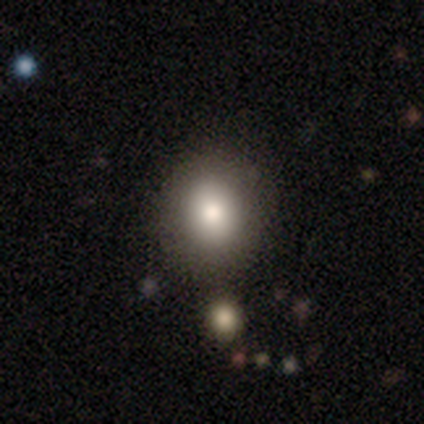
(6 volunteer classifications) Overall: smooth (83%). How rounded: round (80%). Merging: none (100%).